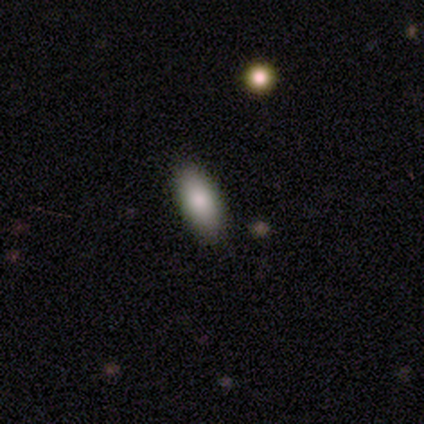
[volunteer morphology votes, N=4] smooth 100%, featured or disk 0%, star or artifact 0%. Down the decision tree: how rounded — in between (100%); merging — none (75%).